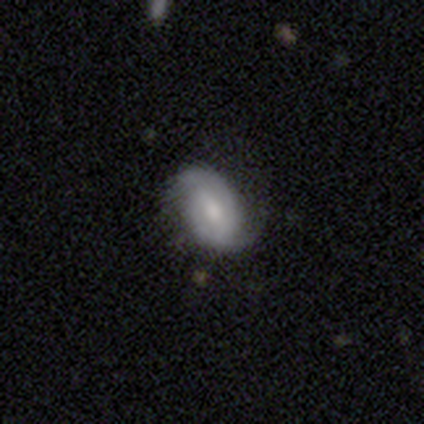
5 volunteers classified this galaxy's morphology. Overall: featured or disk (80%). Edge-on disk: no (100%). Bar: weak (50%; strong 25%). Spiral arms: yes (100%). Spiral arm count: 2 (100%). Spiral winding: medium (75%). Bulge size: small (75%). Merging: none (50%, tied with minor disturbance).